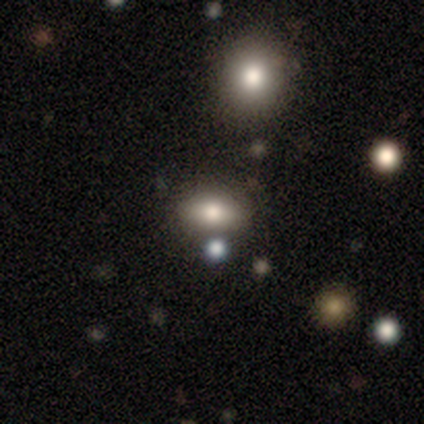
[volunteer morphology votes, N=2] A featured or disk galaxy (100%) with no bar (100%), no spiral arms (100%) and a moderate central bulge (50%, tied with small).

Vote fractions:
- Smooth or featured? featured or disk: 100% / smooth: 0% / star or artifact: 0%
- Edge-on disk? no: 100% / yes: 0%
- Bar? no: 100% / strong: 0% / weak: 0%
- Spiral arms? no: 100% / yes: 0%
- Bulge size? moderate: 50% (tied) / small: 50% (tied) / dominant: 0% / large: 0% / none: 0%
- Merging? none: 100% / minor disturbance: 0% / major disturbance: 0% / merger: 0%